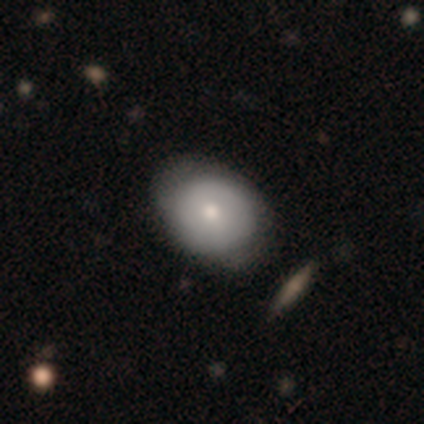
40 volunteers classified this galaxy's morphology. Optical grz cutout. It shows a smooth galaxy with no disk features (75%) that is in between round and cigar-shaped (60%). Merging: none (74%).